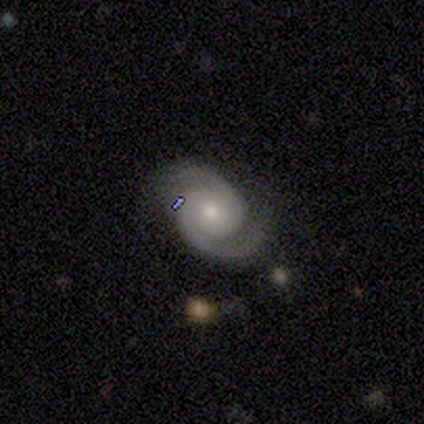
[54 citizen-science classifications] A featured or disk galaxy (89%) with no bar (81%), 2 (96%) tight (48%) spiral arms (98%) and a moderate central bulge (51%).

Vote fractions:
- Smooth or featured? featured or disk: 89% / smooth: 6% / star or artifact: 6%
- Edge-on disk? no: 98% / yes: 2%
- Bar? no: 81% / weak: 11% / strong: 9%
- Spiral arms? yes: 98% / no: 2%
- Spiral winding? tight: 48% / medium: 46% / loose: 7%
- Spiral arm count? 2: 96% / 3: 2% / can't tell: 2% / 1: 0% / 4: 0% / more than 4: 0%
- Bulge size? moderate: 51% / small: 43% / large: 4% / dominant: 2% / none: 0%
- Merging? none: 84% / minor disturbance: 12% / major disturbance: 4% / merger: 0%